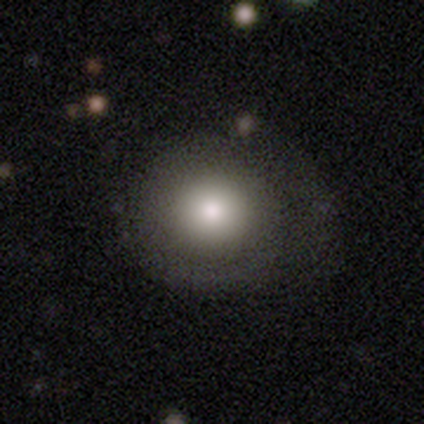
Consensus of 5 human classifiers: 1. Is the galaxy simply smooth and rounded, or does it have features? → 80% smooth, 20% star or artifact, 0% featured or disk.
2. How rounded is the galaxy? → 100% round, 0% in between, 0% cigar-shaped.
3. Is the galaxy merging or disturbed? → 75% none, 25% major disturbance, 0% minor disturbance, 0% merger.